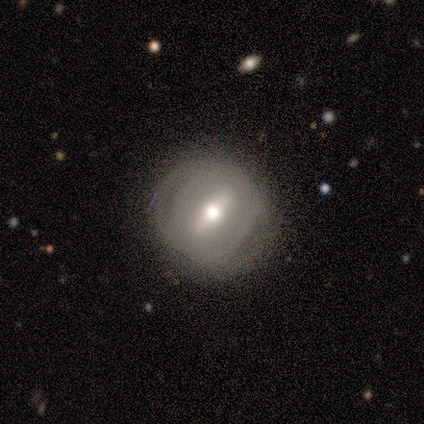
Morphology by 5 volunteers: Smooth or featured? 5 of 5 (100%) said featured or disk. Edge-on disk? 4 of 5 (80%) said no. Bar? 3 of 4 (75%) said strong. Spiral arms? 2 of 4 (50%, tied with no) said yes. Spiral winding? 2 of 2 (100%) said loose. Spiral arm count? 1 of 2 (50%, tied with can't tell) said 2. Bulge size? 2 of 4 (50%) said moderate. Merging? 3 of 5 (60%) said none.